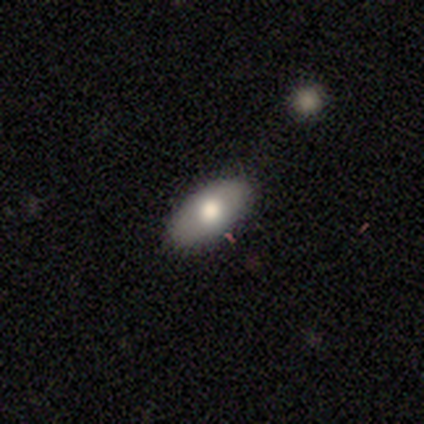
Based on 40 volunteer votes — Smooth or featured: smooth — 82% (featured or disk — 15%)
How rounded: in between — 85% (cigar-shaped — 12%)
Merging: none — 85% (minor disturbance — 15%)